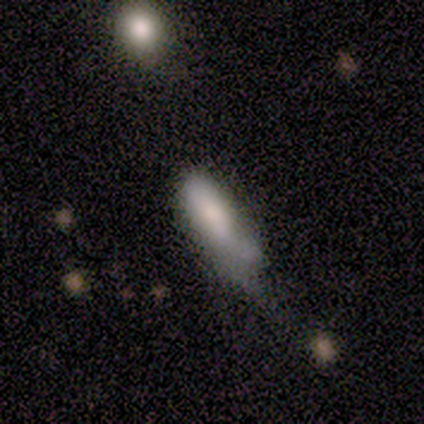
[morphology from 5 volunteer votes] Smooth or featured: smooth — 80% (star or artifact — 20%)
How rounded: in between — 100%
Merging: none — 50% (tied with minor disturbance — 50%)